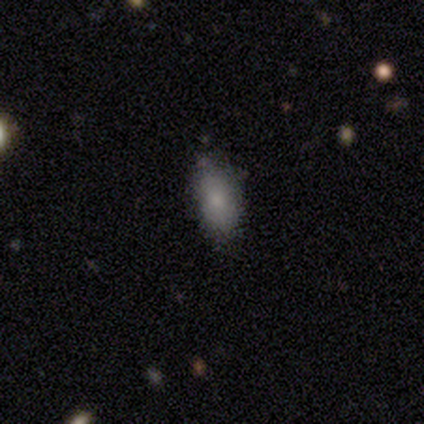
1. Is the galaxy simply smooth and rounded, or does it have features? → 100% smooth, 0% featured or disk, 0% star or artifact.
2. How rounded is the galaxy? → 100% in between, 0% round, 0% cigar-shaped.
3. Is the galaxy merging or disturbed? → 80% none, 20% major disturbance, 0% minor disturbance, 0% merger.